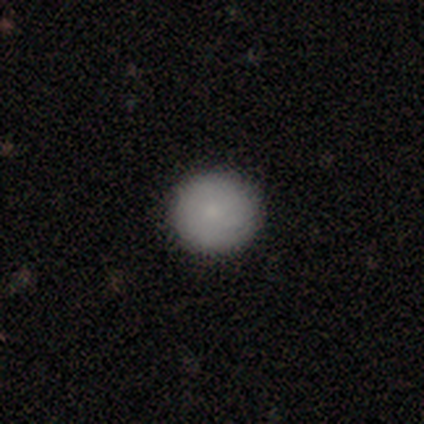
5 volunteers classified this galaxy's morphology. This is clearly a smooth galaxy (80%). How rounded: clearly round (100%). Merging: clearly none (100%).